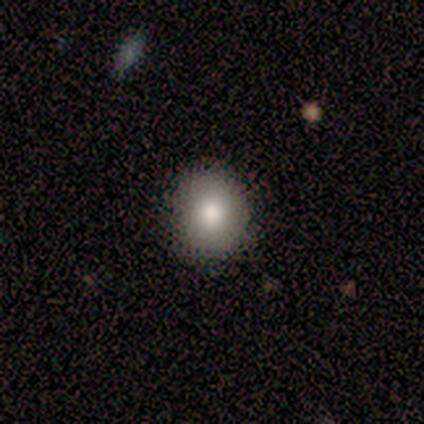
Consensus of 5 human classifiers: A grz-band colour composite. It shows a smooth galaxy with no disk features (100%) that is round (80%). Merging: none (80%).